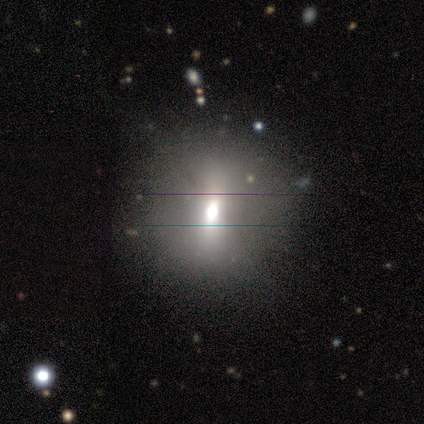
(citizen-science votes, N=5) Volunteers were most divided on "smooth or featured": smooth: 60%, star or artifact: 40%, featured or disk: 0%. More confident: how rounded — round (100%); merging — minor disturbance (67%).